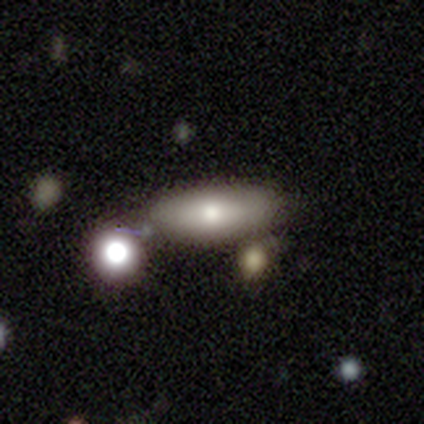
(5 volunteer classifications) Smooth or featured?
  - smooth: 80% *
  - featured or disk: 20%
  - star or artifact: 0%
How rounded?
  - in between: 100% *
  - round: 0%
  - cigar-shaped: 0%
Merging?
  - none: 60% *
  - minor disturbance: 40%
  - major disturbance: 0%
  - merger: 0%